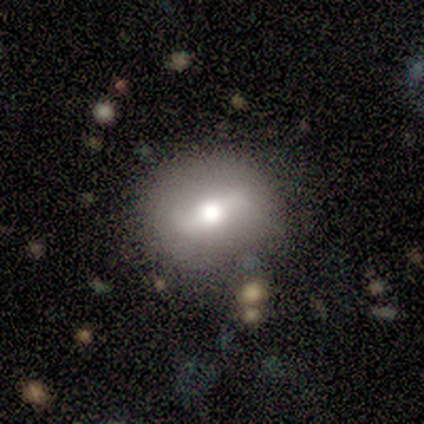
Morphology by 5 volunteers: smooth-or-featured: smooth: 80% | star or artifact: 20% | featured or disk: 0%
  how-rounded: round: 75% | in between: 25% | cigar-shaped: 0%
  merging: none: 100% | minor disturbance: 0% | major disturbance: 0% | merger: 0%